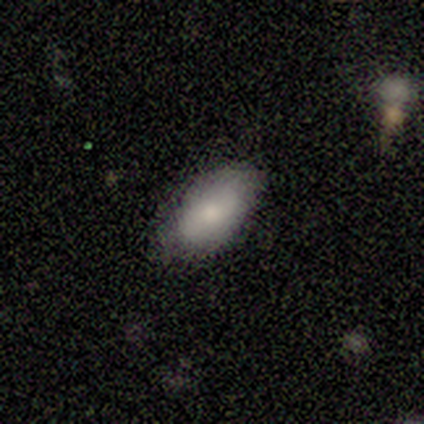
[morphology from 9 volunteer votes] Smooth or featured? smooth (78%)
How rounded? in between (100%)
Merging? none (75%)